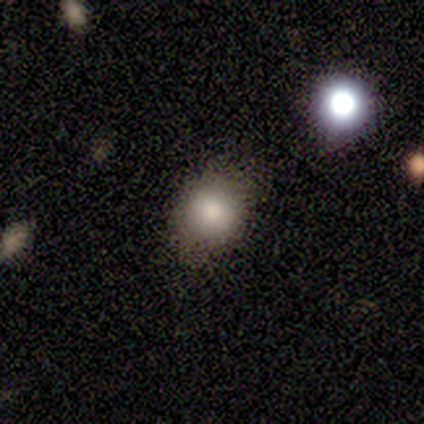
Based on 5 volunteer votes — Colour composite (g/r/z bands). It shows a smooth galaxy with no disk features (100%) that is round (60%). Merging: none (60%).